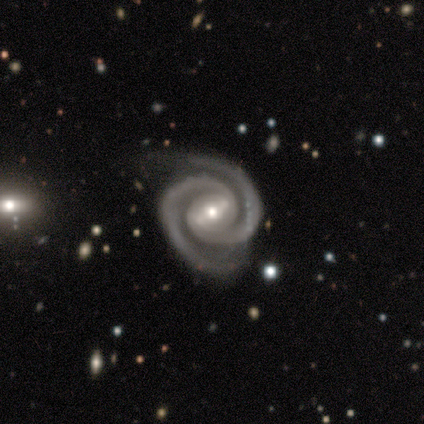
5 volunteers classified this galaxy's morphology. A featured or disk galaxy (100%) with a strong bar (60%), 2 (100%) tight (80%) spiral arms (100%) and a moderate central bulge (80%).

Vote fractions:
- Smooth or featured? featured or disk: 100% / smooth: 0% / star or artifact: 0%
- Edge-on disk? no: 100% / yes: 0%
- Bar? strong: 60% / no: 40% / weak: 0%
- Spiral arms? yes: 100% / no: 0%
- Spiral winding? tight: 80% / medium: 20% / loose: 0%
- Spiral arm count? 2: 100% / 1: 0% / 3: 0% / 4: 0% / more than 4: 0% / can't tell: 0%
- Bulge size? moderate: 80% / small: 20% / dominant: 0% / large: 0% / none: 0%
- Merging? none: 80% / minor disturbance: 20% / major disturbance: 0% / merger: 0%